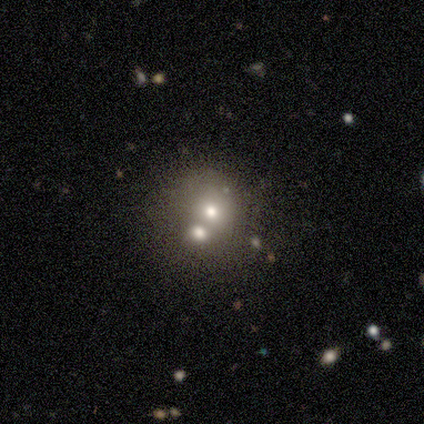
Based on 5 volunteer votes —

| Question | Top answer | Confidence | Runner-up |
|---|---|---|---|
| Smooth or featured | smooth | 60% | featured or disk (20%) |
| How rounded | round | 67% | in between (33%) |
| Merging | none | 75% | minor disturbance (25%) |